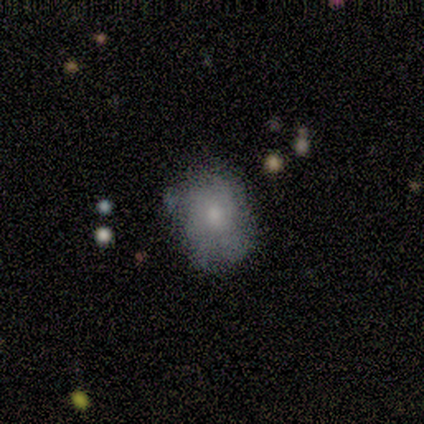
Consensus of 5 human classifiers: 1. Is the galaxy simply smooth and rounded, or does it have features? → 80% smooth, 20% featured or disk, 0% star or artifact.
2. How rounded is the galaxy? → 50% round (tied), 50% in between (tied), 0% cigar-shaped.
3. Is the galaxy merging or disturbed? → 60% none, 40% minor disturbance, 0% major disturbance, 0% merger.